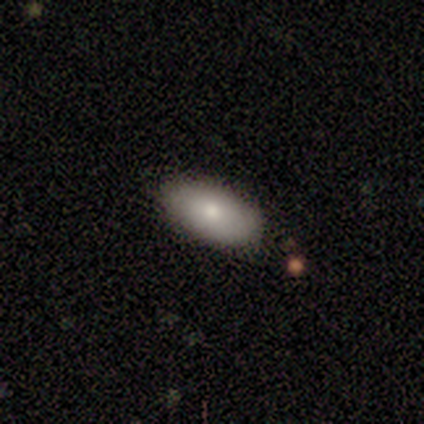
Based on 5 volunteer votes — Smooth or featured: smooth — 80% (featured or disk — 20%)
How rounded: in between — 100%
Merging: none — 100%